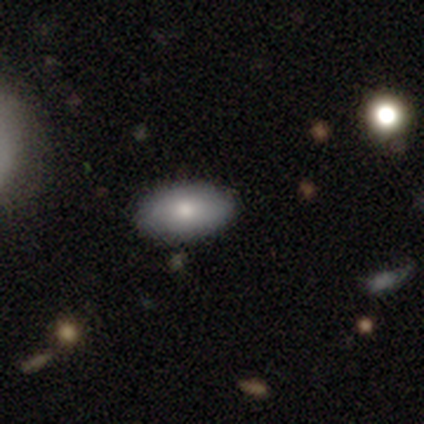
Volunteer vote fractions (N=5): A smooth galaxy with no disk features (60%) that is in between round and cigar-shaped (100%). Merging: none (100%).